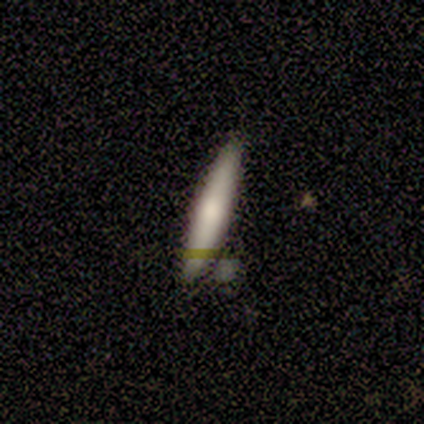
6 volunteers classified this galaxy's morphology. Volunteers were most divided on "merging": none: 50%, merger: 33%, minor disturbance: 17%, major disturbance: 0%. More confident: smooth or featured — smooth (100%); how rounded — cigar-shaped (100%).